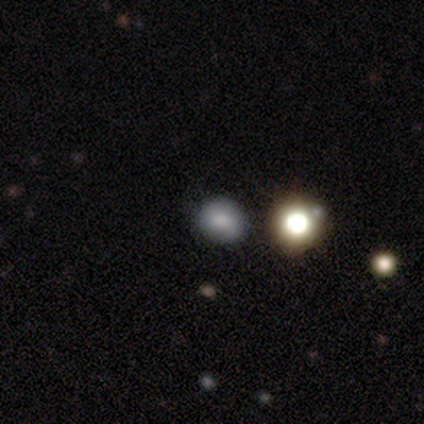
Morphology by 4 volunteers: type=smooth (75%); roundness=in between (67%); merging=none (50%).